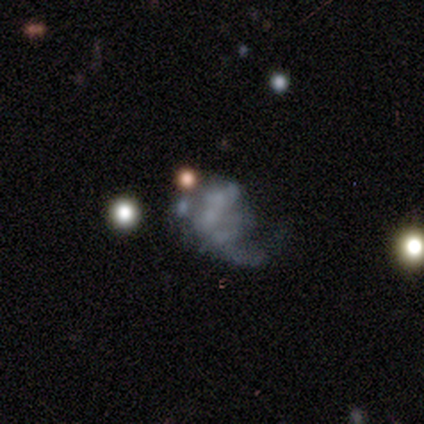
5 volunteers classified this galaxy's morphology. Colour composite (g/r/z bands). It shows a featured or disk galaxy (60%) with no bar (100%), no spiral arms (100%) and no central bulge (100%). Merging: major disturbance (67%).